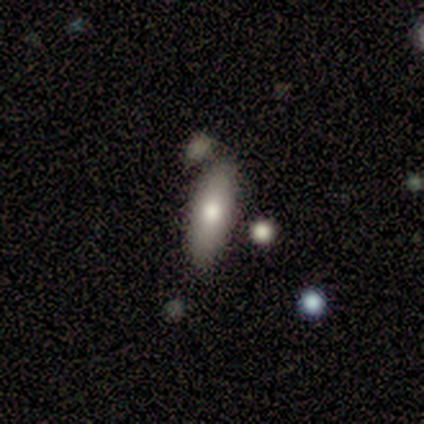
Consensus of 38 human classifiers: Smooth or featured? smooth (66%)
How rounded? in between (56%)
Merging? none (58%)